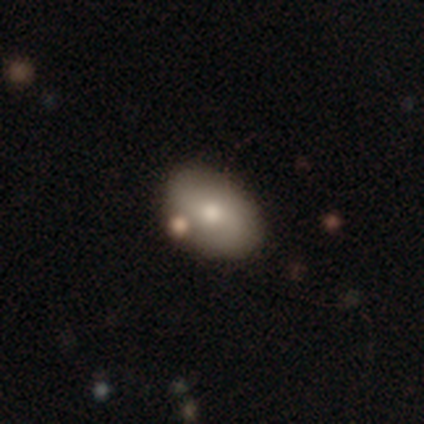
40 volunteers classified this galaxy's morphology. Smooth or featured? 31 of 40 (78%) said smooth. How rounded? 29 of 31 (94%) said in between. Merging? 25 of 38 (66%) said none.